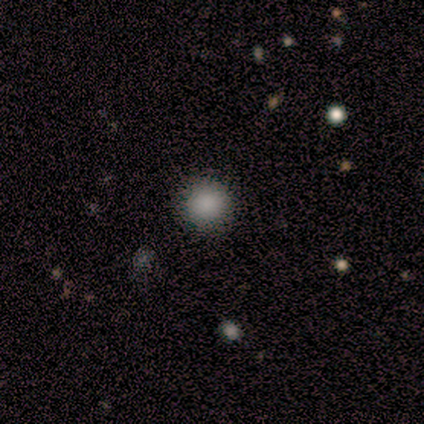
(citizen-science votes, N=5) A smooth galaxy with no disk features (100%) that is round (100%). Merging: none (80%).